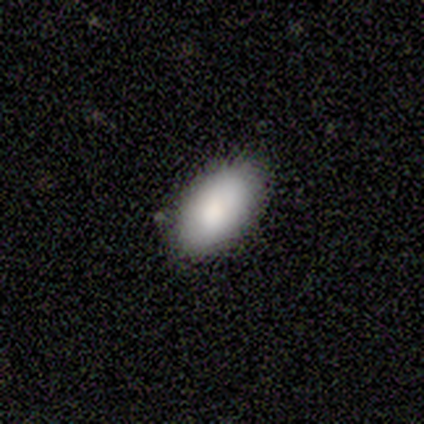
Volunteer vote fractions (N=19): Morphology: type=smooth (89%); roundness=in between (94%); merging=none (89%).